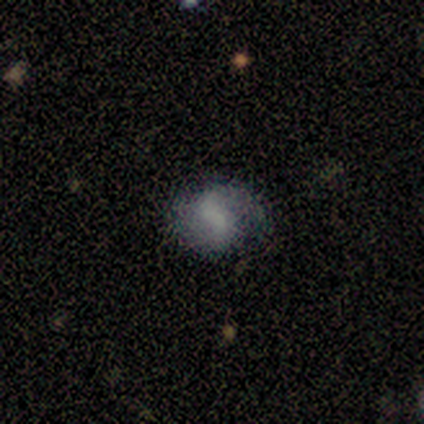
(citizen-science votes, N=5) A featured or disk galaxy (80%) with a weak bar (75%), 2 (75%) loose (75%) spiral arms (100%) and no central bulge (50%).

Vote fractions:
- Smooth or featured? featured or disk: 80% / smooth: 20% / star or artifact: 0%
- Edge-on disk? no: 100% / yes: 0%
- Bar? weak: 75% / no: 25% / strong: 0%
- Spiral arms? yes: 100% / no: 0%
- Spiral winding? loose: 75% / tight: 25% / medium: 0%
- Spiral arm count? 2: 75% / 1: 25% / 3: 0% / 4: 0% / more than 4: 0% / can't tell: 0%
- Bulge size? none: 50% / large: 25% / small: 25% / dominant: 0% / moderate: 0%
- Merging? none: 100% / minor disturbance: 0% / major disturbance: 0% / merger: 0%